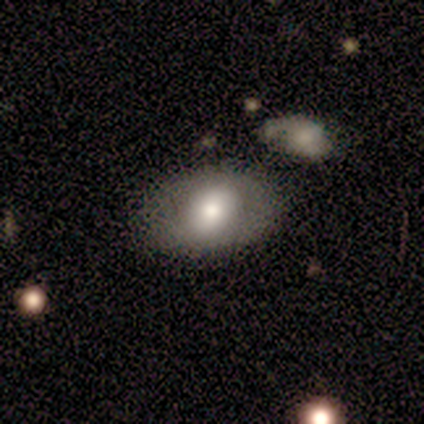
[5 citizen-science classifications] A smooth galaxy with no disk features (80%) that is round (100%). Merging: none (60%).